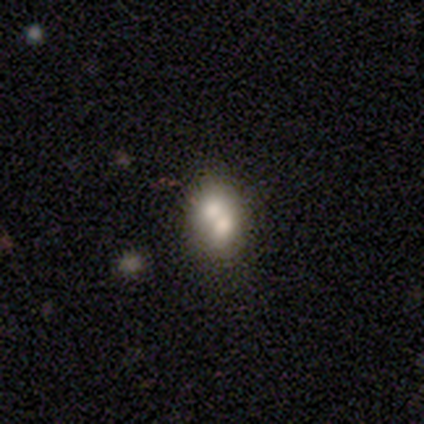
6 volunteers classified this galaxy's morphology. Q: Smooth or featured?
A: smooth (50%); runner-up: featured or disk (33%)
Q: How rounded?
A: round (67%); runner-up: in between (33%)
Q: Merging?
A: merger (80%); runner-up: none (20%)